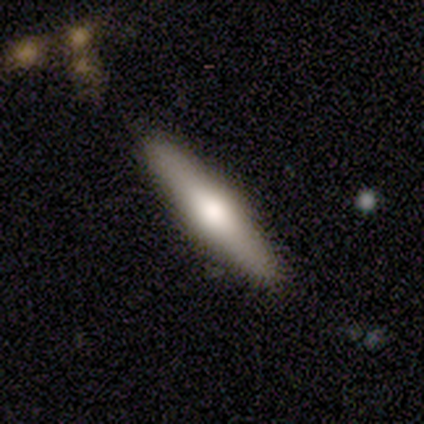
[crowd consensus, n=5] featured or disk 60%, smooth 20%, star or artifact 20%. Down the decision tree: edge-on disk — yes (100%); edge-on bulge — rounded (100%); merging — none (100%).